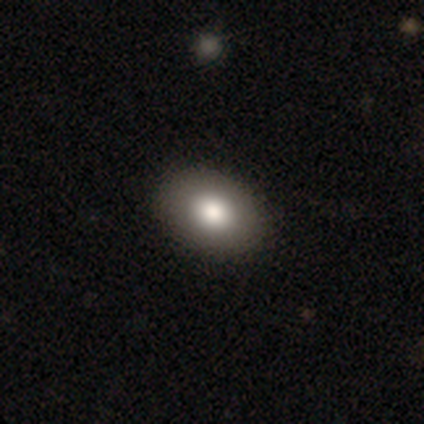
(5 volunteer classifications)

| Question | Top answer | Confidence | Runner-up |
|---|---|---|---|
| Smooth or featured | featured or disk | 40% | tied: star or artifact (40%) |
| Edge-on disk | no | 100% | — |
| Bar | no | 100% | — |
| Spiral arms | no | 100% | — |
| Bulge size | large | 50% | tied: moderate (50%) |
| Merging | none | 100% | — |